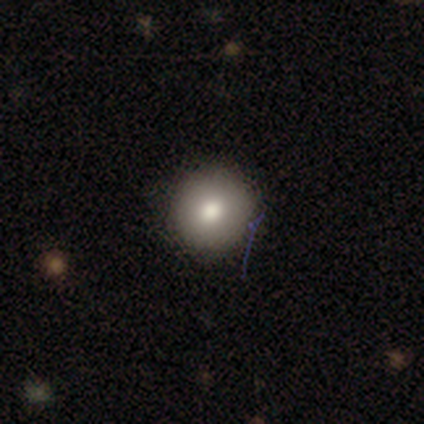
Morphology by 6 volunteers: smooth 83%, featured or disk 17%, star or artifact 0%. Down the decision tree: how rounded — round (100%); merging — none (100%).